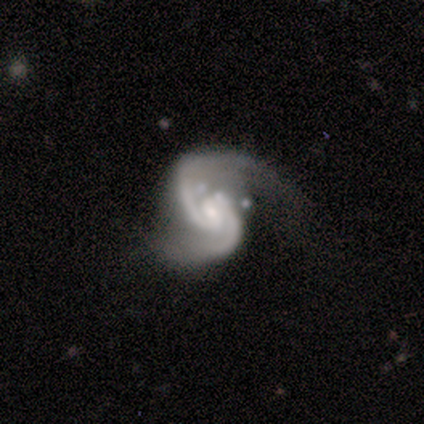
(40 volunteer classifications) A featured or disk galaxy (98%) with a weak bar (59%), 2 (95%) medium (59%) spiral arms (100%) and a moderate central bulge (46%). Merging: none (41%).